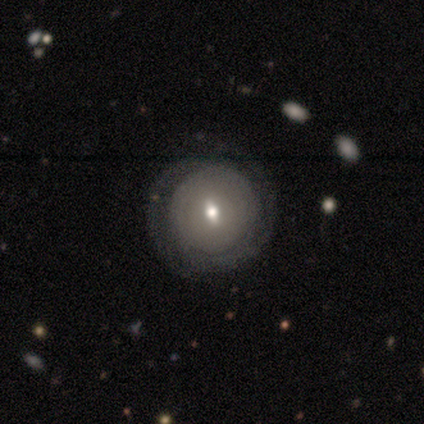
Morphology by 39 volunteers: Volunteers were most divided on "bulge size": moderate: 50%, small: 44%, dominant: 6%, large: 0%, none: 0%. Remaining: edge-on disk — no (95%); merging — none (82%); spiral arms — yes (72%); spiral winding — tight (69%); bar — weak (61%); smooth or featured — featured or disk (49%); spiral arm count — 2 (46%).